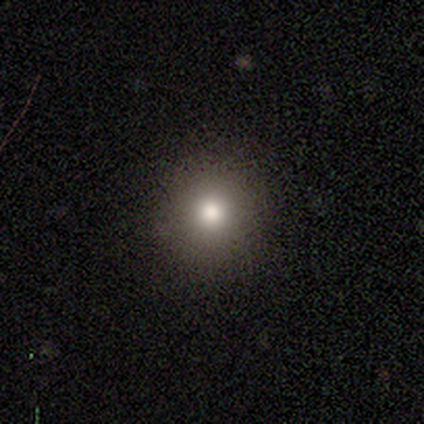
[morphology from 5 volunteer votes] Q: Smooth or featured?
A: smooth (60%); runner-up: featured or disk (20%)
Q: How rounded?
A: round (100%)
Q: Merging?
A: none (75%); runner-up: major disturbance (25%)